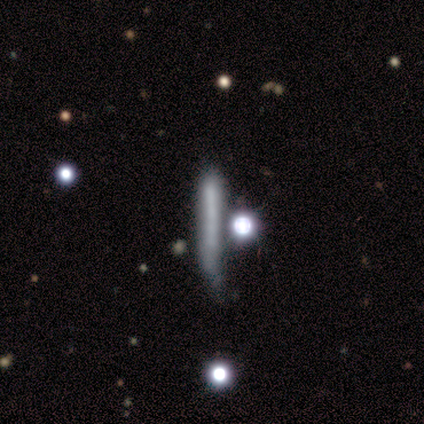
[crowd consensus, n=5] This appears to be a smooth galaxy with no disk features (80%) that is cigar-shaped (100%). Merging: none (80%).